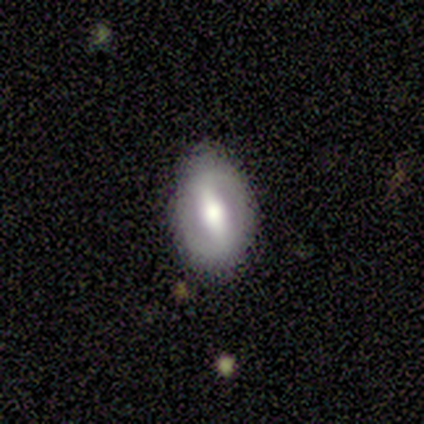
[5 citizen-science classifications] Volunteers were most divided on "spiral arms": yes: 60%, no: 40%. More confident: smooth or featured — featured or disk (100%); edge-on disk — no (100%); bar — strong (100%); bulge size — large (80%); spiral winding — medium (67%); spiral arm count — 2 (67%); merging — none (60%).